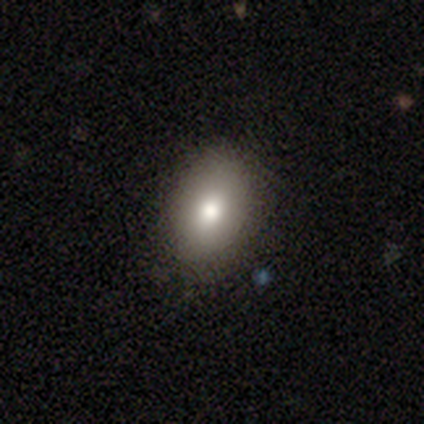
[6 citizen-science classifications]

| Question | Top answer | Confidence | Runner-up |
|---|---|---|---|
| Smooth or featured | smooth | 83% | star or artifact (17%) |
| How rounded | in between | 100% | — |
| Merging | none | 80% | minor disturbance (20%) |